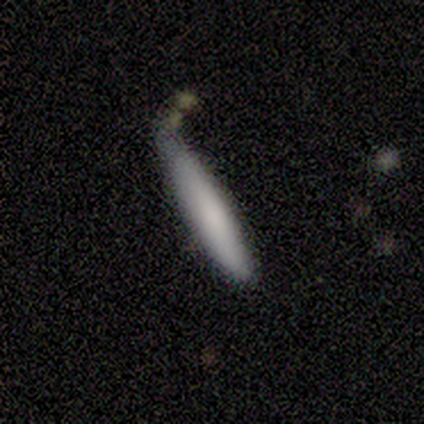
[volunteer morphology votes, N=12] type=smooth (75%); roundness=cigar-shaped (78%); merging=none (58%).